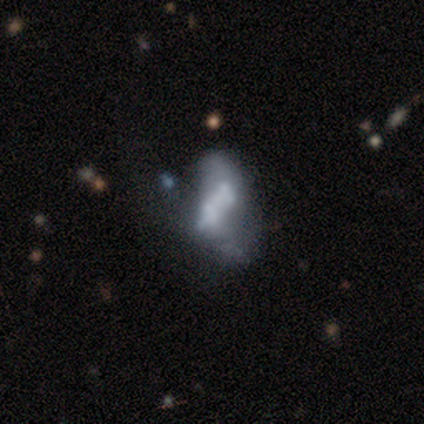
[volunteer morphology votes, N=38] smooth-or-featured: featured or disk: 71% | smooth: 21% | star or artifact: 8%
  disk-edge-on: no: 96% | yes: 4%
    bar: no: 73% | weak: 19% | strong: 8%
    has-spiral-arms: no: 85% | yes: 15%
    bulge-size: none: 58% | small: 19% | large: 12% | moderate: 12% | dominant: 0%
  merging: merger: 29% | none: 23% | major disturbance: 20% | minor disturbance: 9%